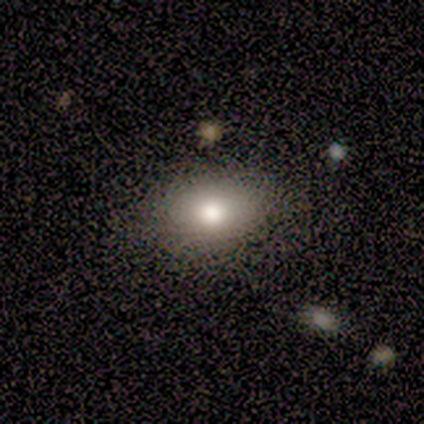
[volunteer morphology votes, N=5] Volunteers were most divided on "smooth or featured": smooth: 60%, featured or disk: 20%, star or artifact: 20%. More confident: how rounded — in between (100%); merging — none (100%).